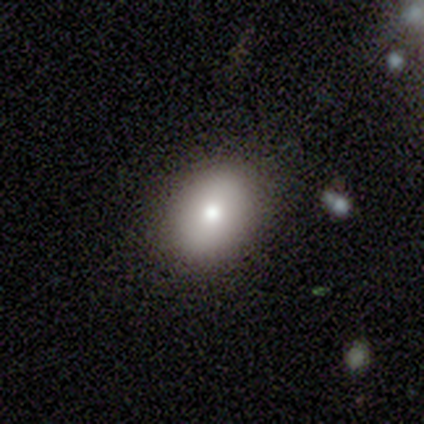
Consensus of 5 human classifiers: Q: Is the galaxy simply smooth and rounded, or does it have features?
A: smooth — 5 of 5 (100%).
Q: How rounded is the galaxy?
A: in between — 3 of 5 (60%).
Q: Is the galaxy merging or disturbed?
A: none — 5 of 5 (100%).